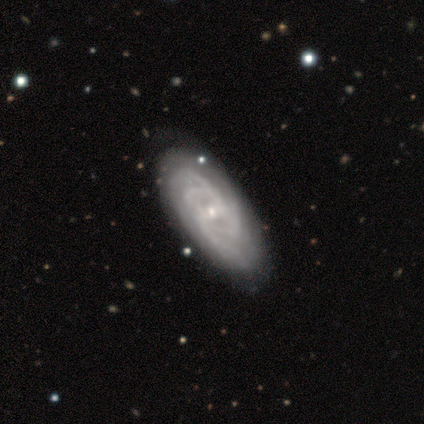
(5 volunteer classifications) Smooth or featured? featured or disk (100%)
Edge-on disk? no (100%)
Bar? weak (60%)
Spiral arms? yes (100%)
Spiral winding? tight (80%)
Spiral arm count? 3 (60%)
Bulge size? small (100%)
Merging? none (100%)